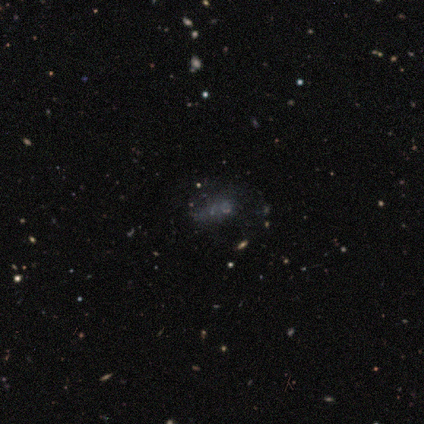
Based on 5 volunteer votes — Overall: star or artifact (60%; smooth 20%).